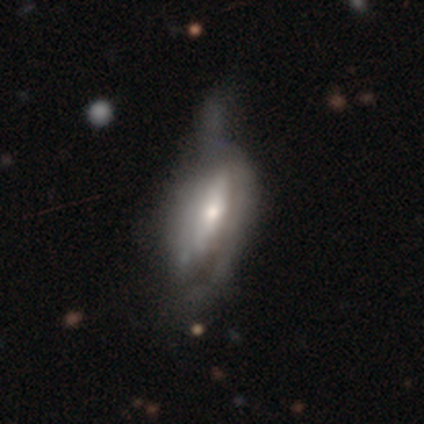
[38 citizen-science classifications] Smooth or featured?
  - featured or disk: 87% *
  - smooth: 13%
  - star or artifact: 0%
Edge-on disk?
  - no: 82% *
  - yes: 18%
Bar?
  - no: 63% *
  - weak: 22%
  - strong: 15%
Spiral arms?
  - yes: 52% *
  - no: 48%
Spiral winding?
  - tight: 43% * (tied)
  - medium: 43% * (tied)
  - loose: 14%
Spiral arm count?
  - 2: 50% *
  - can't tell: 43%
  - 1: 7%
  - 3: 0%
  - 4: 0%
  - more than 4: 0%
Bulge size?
  - moderate: 56% *
  - small: 37%
  - large: 7%
  - dominant: 0%
  - none: 0%
Merging?
  - major disturbance: 34% *
  - minor disturbance: 21%
  - none: 11%
  - merger: 3%